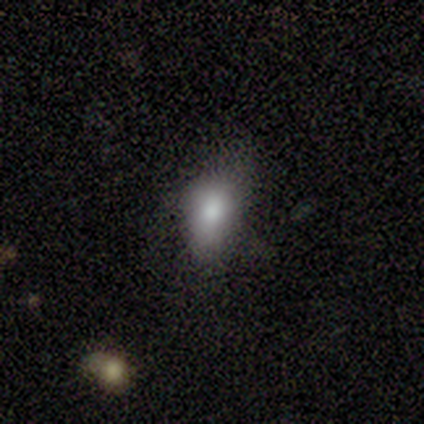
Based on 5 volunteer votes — Smooth or featured? 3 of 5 (60%) said smooth. How rounded? 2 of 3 (67%) said round. Merging? 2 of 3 (67%) said none.